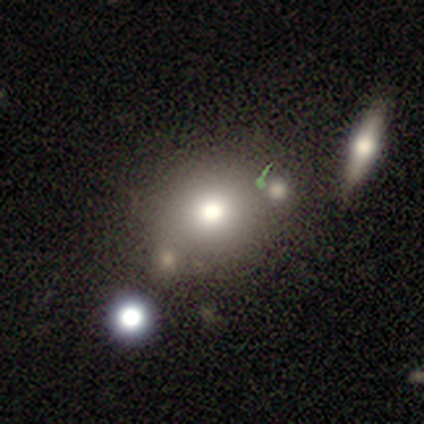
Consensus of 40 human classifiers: smooth_or_featured: smooth (p=0.62) [alt: featured or disk p=0.20]
how_rounded: round (p=0.88) [alt: in between p=0.12]
merging: none (p=0.64) [alt: merger p=0.18]